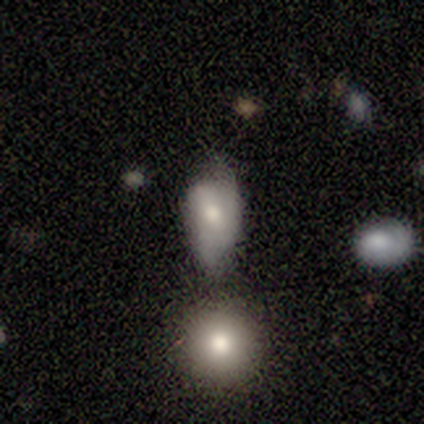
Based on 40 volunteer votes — smooth-or-featured: smooth: 60% | featured or disk: 32% | star or artifact: 8%
  how-rounded: in between: 96% | cigar-shaped: 4% | round: 0%
  merging: minor disturbance: 43% | none: 35% | merger: 14% | major disturbance: 8%